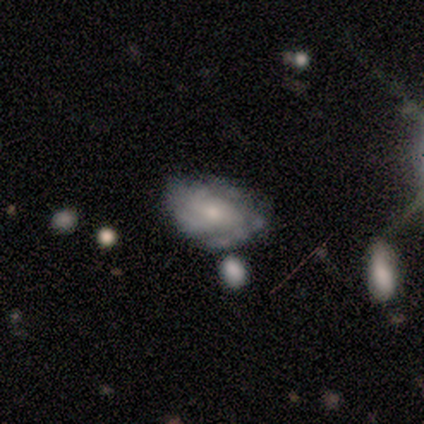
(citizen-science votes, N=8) Smooth or featured? featured or disk (88%)
Edge-on disk? no (100%)
Bar? no (57%)
Spiral arms? yes (86%)
Spiral winding? tight (100%)
Spiral arm count? can't tell (50%)
Bulge size? small (57%)
Merging? none (50%)